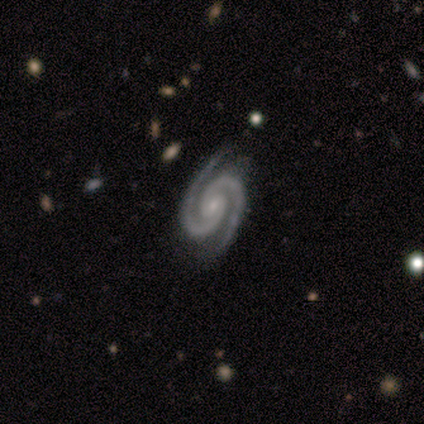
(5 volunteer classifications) A featured or disk galaxy (80%) with no bar (75%), 2 (100%) tight (100%) spiral arms (100%) and a small central bulge (100%).

Vote fractions:
- Smooth or featured? featured or disk: 80% / smooth: 20% / star or artifact: 0%
- Edge-on disk? no: 100% / yes: 0%
- Bar? no: 75% / weak: 25% / strong: 0%
- Spiral arms? yes: 100% / no: 0%
- Spiral winding? tight: 100% / medium: 0% / loose: 0%
- Spiral arm count? 2: 100% / 1: 0% / 3: 0% / 4: 0% / more than 4: 0% / can't tell: 0%
- Bulge size? small: 100% / dominant: 0% / large: 0% / moderate: 0% / none: 0%
- Merging? none: 80% / minor disturbance: 20% / major disturbance: 0% / merger: 0%